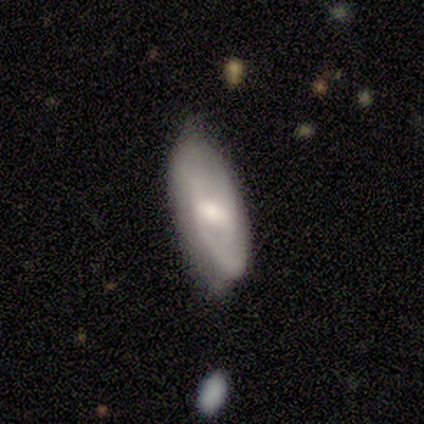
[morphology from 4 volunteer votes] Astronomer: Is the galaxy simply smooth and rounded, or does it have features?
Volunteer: smooth — 50%, tied with featured or disk at 50%.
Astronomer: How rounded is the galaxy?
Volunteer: in between — 100%.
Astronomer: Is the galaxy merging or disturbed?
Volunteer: none — 75%.